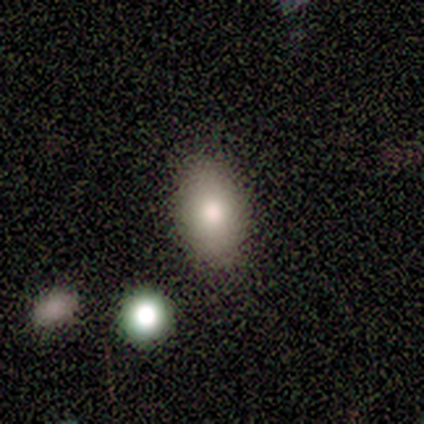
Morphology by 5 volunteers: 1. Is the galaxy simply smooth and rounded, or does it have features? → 40% smooth (tied), 40% star or artifact (tied), 20% featured or disk.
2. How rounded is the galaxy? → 100% in between, 0% round, 0% cigar-shaped.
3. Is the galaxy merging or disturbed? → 100% none, 0% minor disturbance, 0% major disturbance, 0% merger.